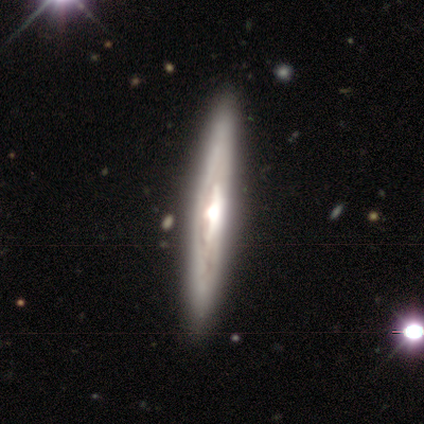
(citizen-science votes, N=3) This is likely a featured or disk galaxy (67%). It is clearly viewed edge-on (100%). Edge-on bulge: clearly rounded (100%). Merging: clearly none (100%).